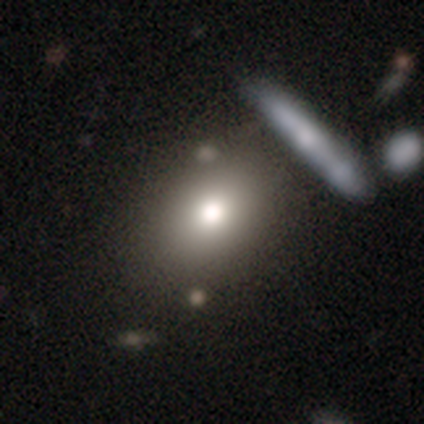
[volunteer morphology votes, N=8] A smooth galaxy with no disk features (75%) that is in between round and cigar-shaped (83%).

Vote fractions:
- Smooth or featured? smooth: 75% / star or artifact: 25% / featured or disk: 0%
- How rounded? in between: 83% / round: 17% / cigar-shaped: 0%
- Merging? none: 83% / merger: 17% / minor disturbance: 0% / major disturbance: 0%